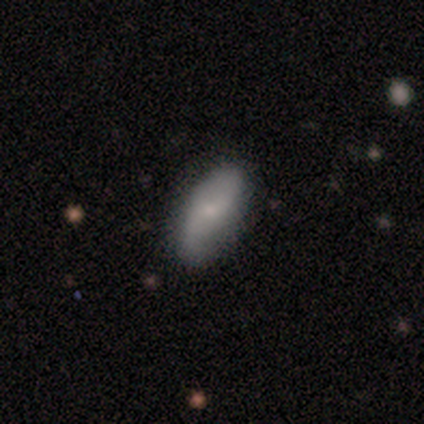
A smooth galaxy with no disk features (51%) that is in between round and cigar-shaped (100%).

Vote fractions:
- Smooth or featured? smooth: 51% / featured or disk: 38% / star or artifact: 10%
- How rounded? in between: 100% / round: 0% / cigar-shaped: 0%
- Merging? none: 46% / minor disturbance: 20% / merger: 3% / major disturbance: 0%